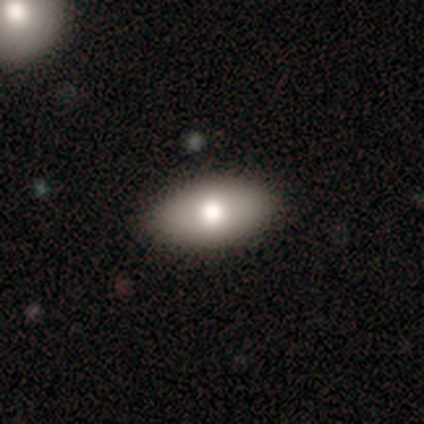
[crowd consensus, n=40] This appears to be a smooth galaxy with no disk features (82%) that is in between round and cigar-shaped (97%). Merging: none (89%).